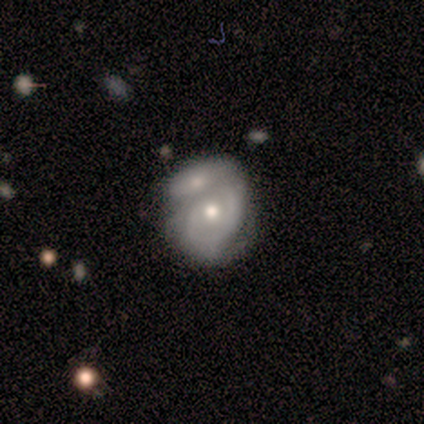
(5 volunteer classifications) Morphology: type=featured or disk (100%); edge-on=no (100%); bar=no (80%); spiral arms=yes (60%); winding=tight (67%); arm count=2 (67%); bulge=moderate (100%); merging=merger (80%).